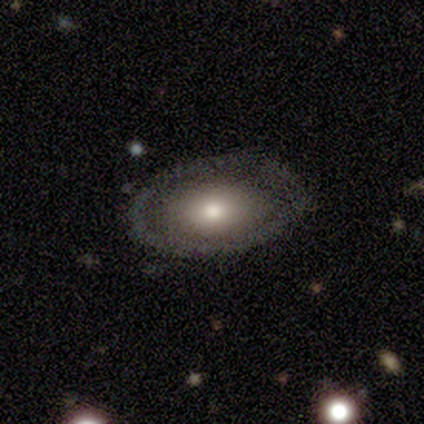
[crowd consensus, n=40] Volunteers were most divided on "smooth or featured": featured or disk: 52%, smooth: 42%, star or artifact: 5%. More confident: bar — no (100%); spiral arms — no (100%); edge-on disk — no (95%); bulge size — moderate (75%); merging — none (53%).